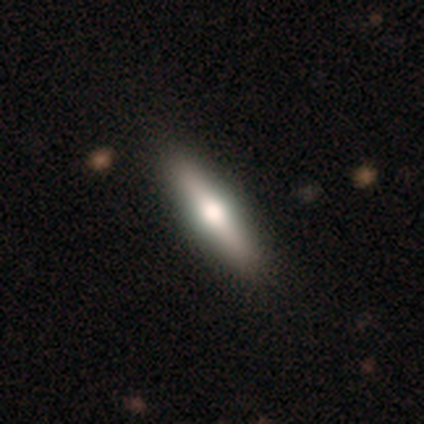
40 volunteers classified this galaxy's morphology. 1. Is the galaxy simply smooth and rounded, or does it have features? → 55% featured or disk, 45% smooth, 0% star or artifact.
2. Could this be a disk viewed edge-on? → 95% yes, 5% no.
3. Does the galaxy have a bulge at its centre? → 100% rounded, 0% boxy, 0% none.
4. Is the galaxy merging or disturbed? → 68% none, 2% minor disturbance, 2% merger, 0% major disturbance.